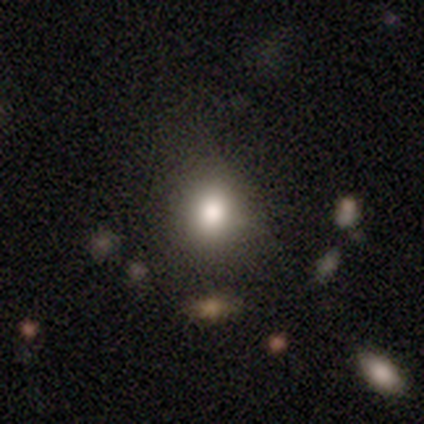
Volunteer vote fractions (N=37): Volunteers were most divided on "how rounded": round: 62%, in between: 38%, cigar-shaped: 0%. More confident: merging — none (79%); smooth or featured — smooth (70%).